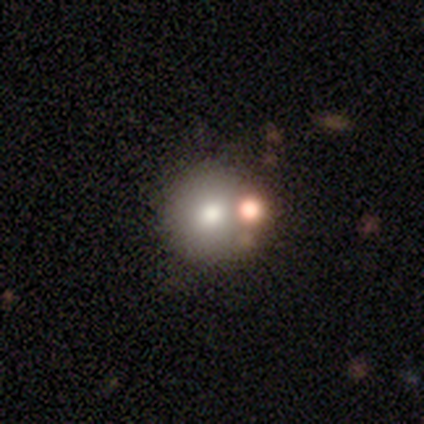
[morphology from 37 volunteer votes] smooth-or-featured: smooth: 70% | featured or disk: 22% | star or artifact: 8%
  how-rounded: round: 92% | in between: 8% | cigar-shaped: 0%
  merging: merger: 47% | none: 3% | minor disturbance: 3% | major disturbance: 0%